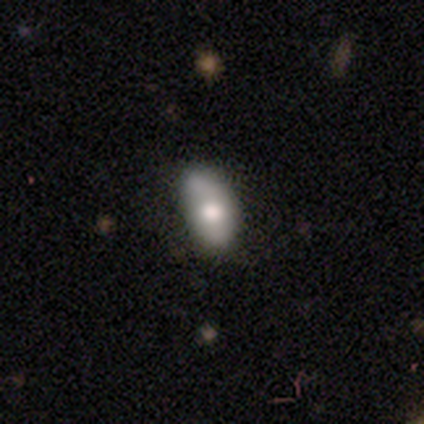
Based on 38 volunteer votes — A smooth galaxy with no disk features (58%) that is in between round and cigar-shaped (95%). Merging: none (57%).